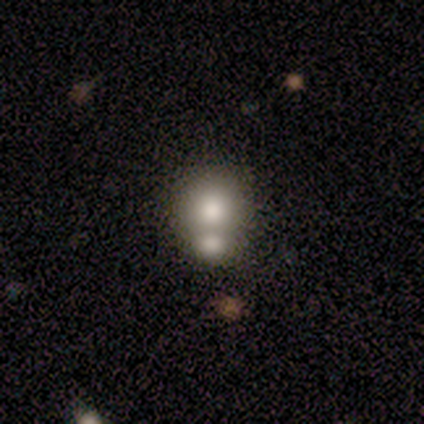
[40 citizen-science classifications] smooth 60%, featured or disk 30%, star or artifact 10%. Down the decision tree: how rounded — round (79%); merging — merger (44%).